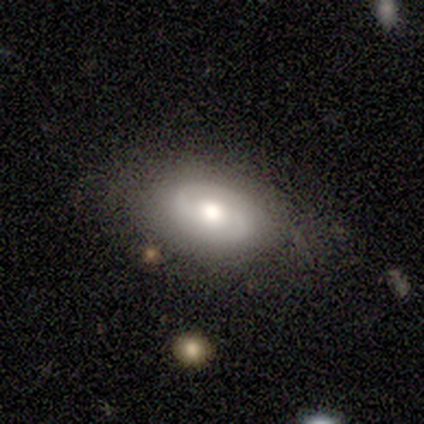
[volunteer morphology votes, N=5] This is clearly a featured or disk galaxy (80%). It is clearly not viewed edge-on (100%). Bar: possibly weak (50%, tied with no). Spiral arm pattern: clearly yes (100%). Spiral arm count: likely 2 (75%). Spiral winding: possibly loose (50%). Central bulge: possibly large (50%, tied with moderate). Merging: marginally none (40%, tied with minor disturbance).